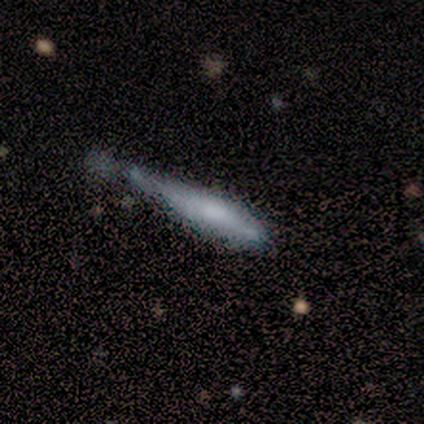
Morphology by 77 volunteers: Q: Smooth or featured?
A: smooth (52%); runner-up: featured or disk (42%)
Q: How rounded?
A: cigar-shaped (88%); runner-up: in between (12%)
Q: Merging?
A: minor disturbance (54%); runner-up: none (22%)